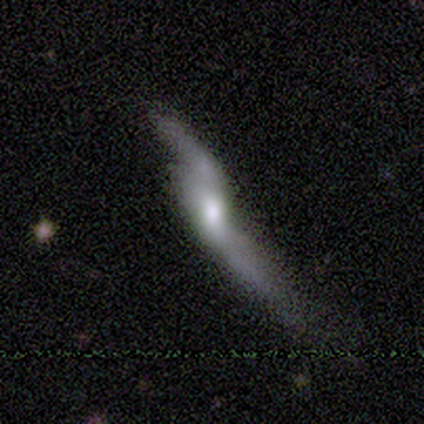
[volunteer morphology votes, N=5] A featured or disk galaxy (80%) with a weak bar (67%), 2 (100%) loose (100%) spiral arms (67%) and a moderate central bulge (67%).

Vote fractions:
- Smooth or featured? featured or disk: 80% / smooth: 20% / star or artifact: 0%
- Edge-on disk? no: 75% / yes: 25%
- Bar? weak: 67% / no: 33% / strong: 0%
- Spiral arms? yes: 67% / no: 33%
- Spiral winding? loose: 100% / tight: 0% / medium: 0%
- Spiral arm count? 2: 100% / 1: 0% / 3: 0% / 4: 0% / more than 4: 0% / can't tell: 0%
- Bulge size? moderate: 67% / large: 33% / dominant: 0% / small: 0% / none: 0%
- Merging? major disturbance: 60% / merger: 40% / none: 0% / minor disturbance: 0%